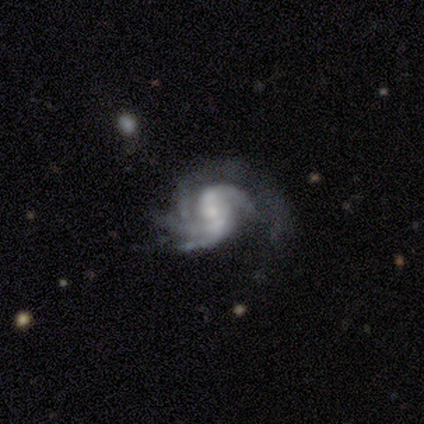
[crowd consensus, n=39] Q: Smooth or featured?
A: featured or disk (95%); runner-up: star or artifact (5%)
Q: Edge-on disk?
A: no (95%); runner-up: yes (5%)
Q: Bar?
A: no (49%); runner-up: weak (29%)
Q: Spiral arms?
A: yes (91%); runner-up: no (9%)
Q: Spiral winding?
A: tight (44%); runner-up: medium (38%)
Q: Spiral arm count?
A: 3 (34%); runner-up: 4 (25%)
Q: Bulge size?
A: small (57%); runner-up: none (20%)
Q: Merging?
A: none (35%); tied with: major disturbance (35%)